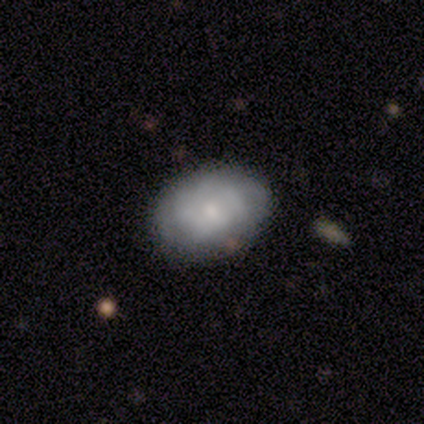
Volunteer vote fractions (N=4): Volunteers were most divided on "smooth or featured" (2-way tie): smooth: 50%, featured or disk: 50%, star or artifact: 0%; "how rounded" (2-way tie): round: 50%, in between: 50%, cigar-shaped: 0%. More confident: merging — none (100%).